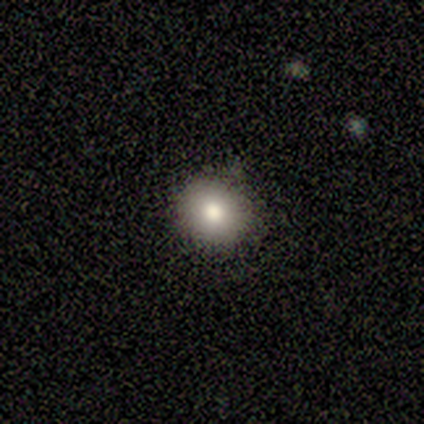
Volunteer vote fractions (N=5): Overall: smooth (100%). How rounded: round (80%). Merging: none (80%).